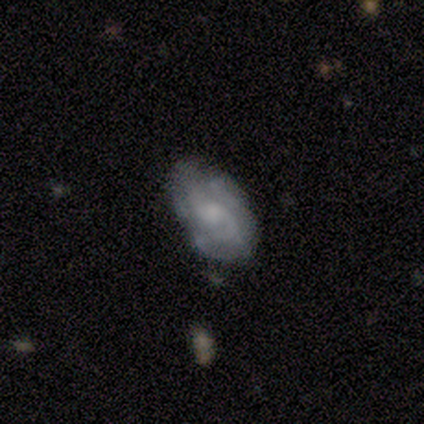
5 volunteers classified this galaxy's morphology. featured or disk 80%, smooth 20%, star or artifact 0%. Down the decision tree: edge-on disk — no (100%); bar — weak (50%, tied with no); spiral arms — yes (100%); spiral arm count — 2 (75%); spiral winding — medium (50%, tied with loose); bulge size — small (50%); merging — minor disturbance (60%).